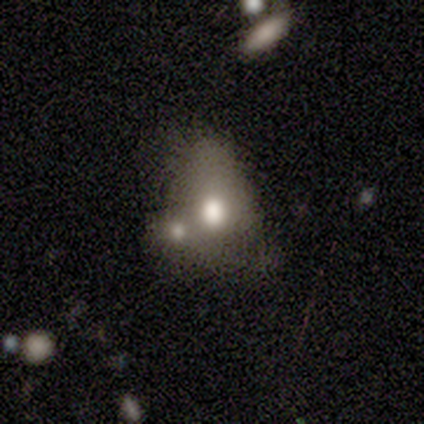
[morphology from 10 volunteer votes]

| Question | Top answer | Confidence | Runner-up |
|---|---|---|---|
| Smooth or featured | smooth | 50% | tied: featured or disk (50%) |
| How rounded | round | 80% | in between (20%) |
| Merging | major disturbance | 50% | merger (40%) |